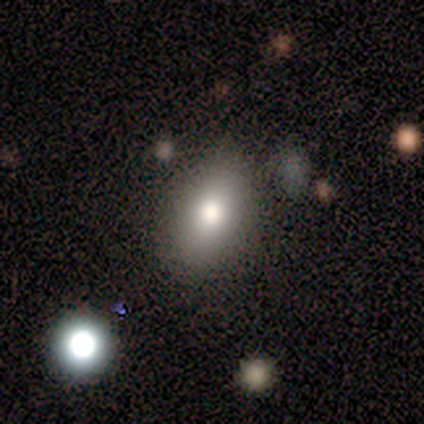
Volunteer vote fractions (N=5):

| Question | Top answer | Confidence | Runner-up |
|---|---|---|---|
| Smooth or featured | smooth | 80% | star or artifact (20%) |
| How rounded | in between | 75% | round (25%) |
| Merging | none | 100% | — |